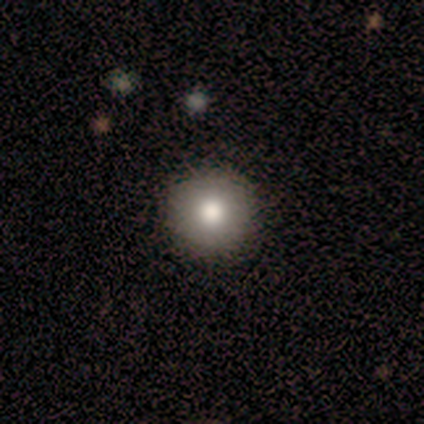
Smooth or featured?
  - smooth: 100% *
  - featured or disk: 0%
  - star or artifact: 0%
How rounded?
  - round: 100% *
  - in between: 0%
  - cigar-shaped: 0%
Merging?
  - none: 80% *
  - minor disturbance: 20%
  - major disturbance: 0%
  - merger: 0%